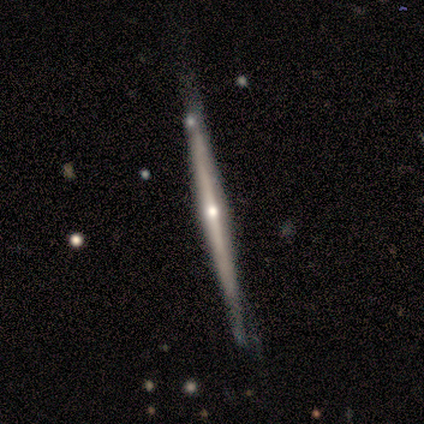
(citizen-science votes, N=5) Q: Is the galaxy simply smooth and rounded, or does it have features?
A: featured or disk — 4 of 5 (80%).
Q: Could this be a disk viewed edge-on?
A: yes — 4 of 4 (100%).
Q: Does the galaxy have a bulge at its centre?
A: rounded — 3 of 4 (75%).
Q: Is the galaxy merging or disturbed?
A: none — 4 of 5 (80%).